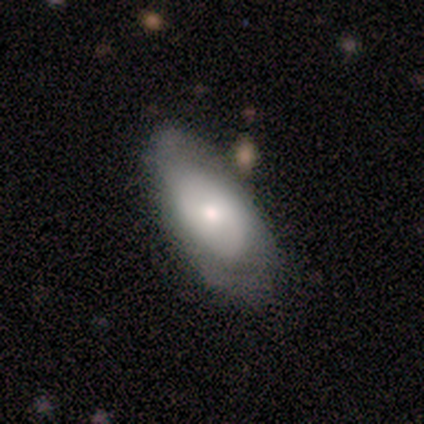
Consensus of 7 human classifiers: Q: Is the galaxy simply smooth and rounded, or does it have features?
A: smooth — 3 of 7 (43%, tied with featured or disk).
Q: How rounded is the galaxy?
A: in between — 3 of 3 (100%).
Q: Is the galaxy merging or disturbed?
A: none — 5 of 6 (83%).